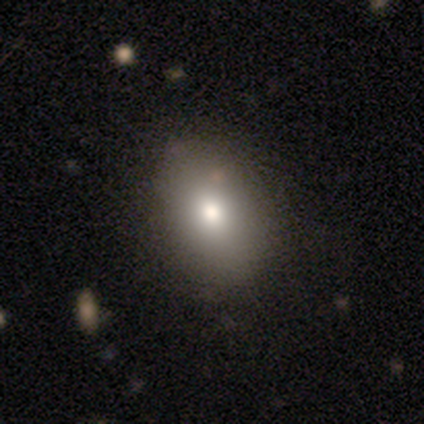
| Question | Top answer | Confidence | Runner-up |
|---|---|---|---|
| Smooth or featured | smooth | 83% | featured or disk (17%) |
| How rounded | in between | 60% | round (40%) |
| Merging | none | 83% | minor disturbance (17%) |